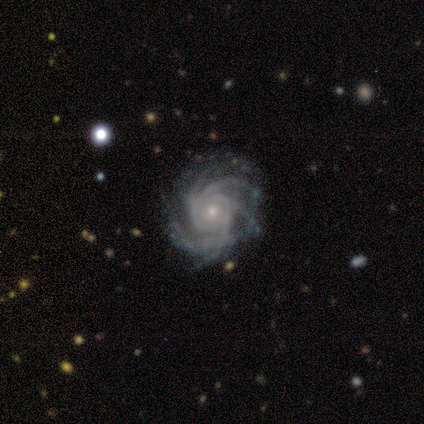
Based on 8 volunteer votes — smooth-or-featured: featured or disk: 88% | star or artifact: 12% | smooth: 0%
  disk-edge-on: no: 100% | yes: 0%
    bar: no: 71% | strong: 14% | weak: 14%
    has-spiral-arms: yes: 100% | no: 0%
      spiral-winding: tight: 86% | medium: 14% | loose: 0%
      spiral-arm-count: more than 4: 43% | 4: 29% | can't tell: 29% | 1: 0% | 2: 0% | 3: 0%
    bulge-size: small: 86% | moderate: 14% | dominant: 0% | large: 0% | none: 0%
  merging: minor disturbance: 43% | none: 29% | major disturbance: 29% | merger: 0%